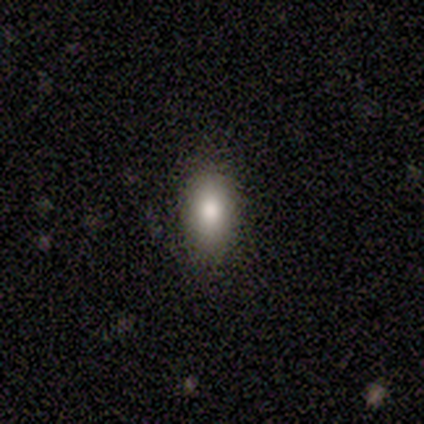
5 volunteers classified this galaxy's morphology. smooth-or-featured: smooth: 60% | featured or disk: 20% | star or artifact: 20%
  how-rounded: in between: 100% | round: 0% | cigar-shaped: 0%
  merging: none: 100% | minor disturbance: 0% | major disturbance: 0% | merger: 0%